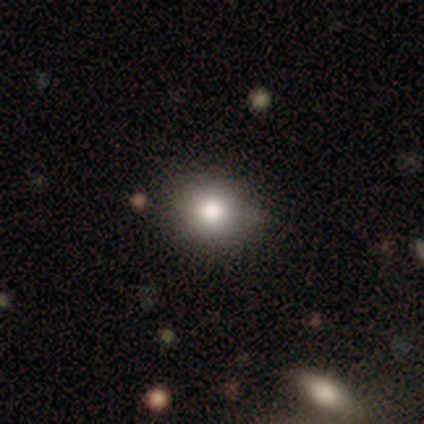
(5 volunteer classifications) smooth 80%, featured or disk 20%, star or artifact 0%. Down the decision tree: how rounded — round (75%); merging — none (80%).